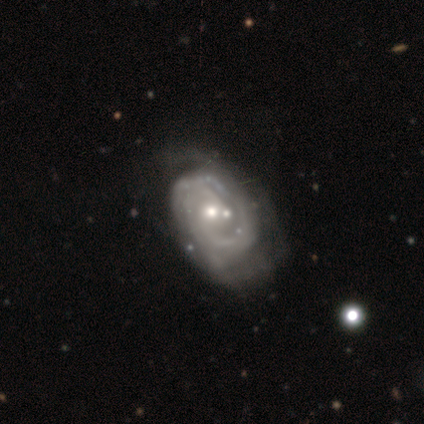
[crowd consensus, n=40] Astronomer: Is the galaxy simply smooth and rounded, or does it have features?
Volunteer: featured or disk — 98%.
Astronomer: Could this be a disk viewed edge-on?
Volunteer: no — 100%.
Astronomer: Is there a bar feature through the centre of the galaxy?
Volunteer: no — 74%.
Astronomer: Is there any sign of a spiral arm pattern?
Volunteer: yes — 92%.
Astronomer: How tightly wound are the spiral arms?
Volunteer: tight — 53% (runner-up: medium, 39%).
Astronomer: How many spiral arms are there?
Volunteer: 2 — 50% (runner-up: can't tell, 39%).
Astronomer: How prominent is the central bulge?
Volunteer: moderate — 62%.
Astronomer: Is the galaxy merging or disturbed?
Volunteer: major disturbance — 22% (runner-up: none, 20%).